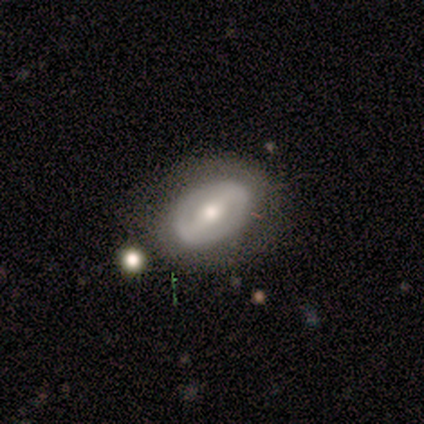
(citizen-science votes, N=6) Smooth or featured? featured or disk (83%)
Edge-on disk? no (100%)
Bar? strong (60%)
Spiral arms? no (80%)
Bulge size? moderate (40%, tied with small)
Merging? none (83%)